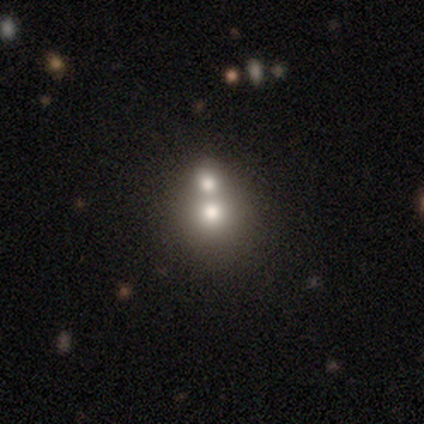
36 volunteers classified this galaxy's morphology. Smooth or featured?
  - smooth: 44% *
  - star or artifact: 33%
  - featured or disk: 22%
How rounded?
  - round: 69% *
  - in between: 31%
  - cigar-shaped: 0%
Merging?
  - merger: 54% *
  - none: 42%
  - minor disturbance: 4%
  - major disturbance: 0%